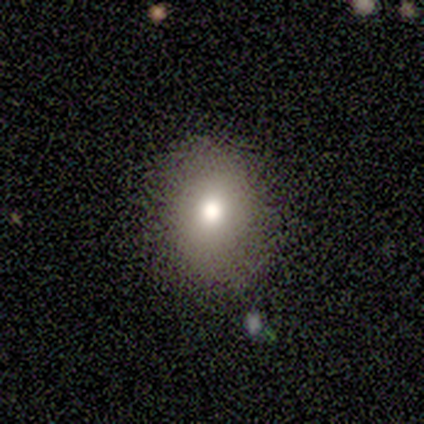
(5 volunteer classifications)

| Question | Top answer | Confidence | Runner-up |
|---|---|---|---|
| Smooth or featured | smooth | 60% | star or artifact (40%) |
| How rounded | in between | 100% | — |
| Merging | none | 100% | — |